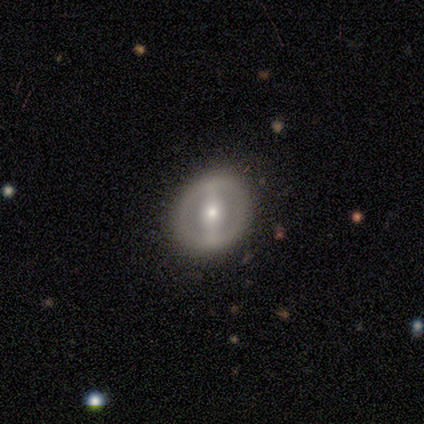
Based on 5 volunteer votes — smooth 60%, featured or disk 40%, star or artifact 0%. Down the decision tree: how rounded — round (67%); merging — none (80%).